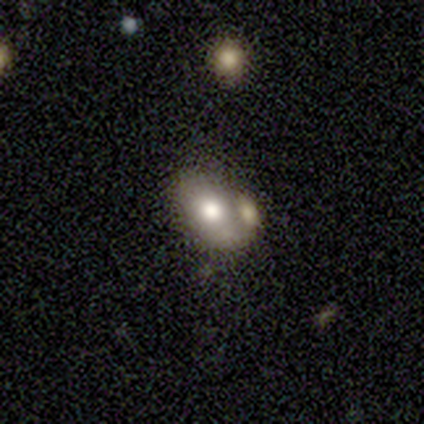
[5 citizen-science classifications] smooth 40% (tied), star or artifact 40% (tied), featured or disk 20%. Down the decision tree: how rounded — in between (100%); merging — none (67%).